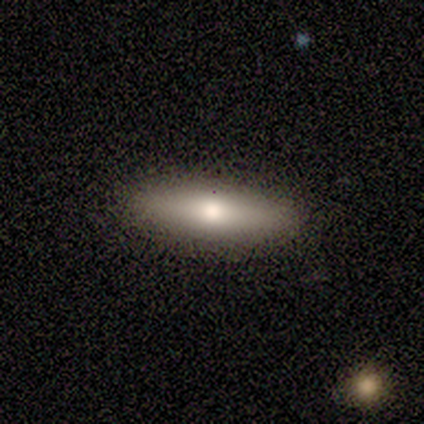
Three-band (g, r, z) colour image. It shows a smooth galaxy with no disk features (50%, tied with featured or disk) that is in between round and cigar-shaped (60%). Merging: none (100%).